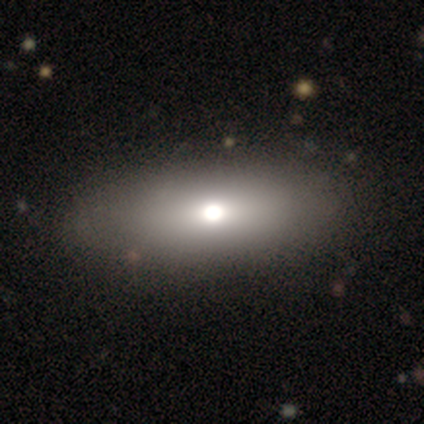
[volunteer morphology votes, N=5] A featured or disk galaxy (40%, tied with star or artifact) viewed edge-on (50%, tied with no) with a rounded central bulge (100%). Merging: none (100%).